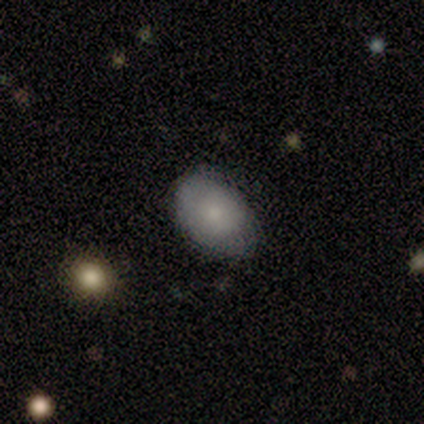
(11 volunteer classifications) smooth_or_featured: smooth (p=0.91) [alt: featured or disk p=0.09]
how_rounded: in between (p=0.80) [alt: round p=0.20]
merging: none (p=0.91) [alt: minor disturbance p=0.09]